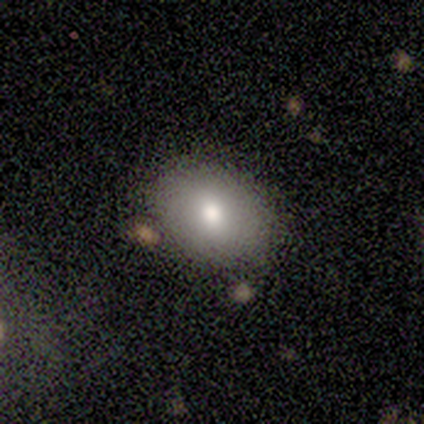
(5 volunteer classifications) This appears to be a smooth galaxy with no disk features (40%, tied with star or artifact) that is in between round and cigar-shaped (100%). Merging: none (67%).